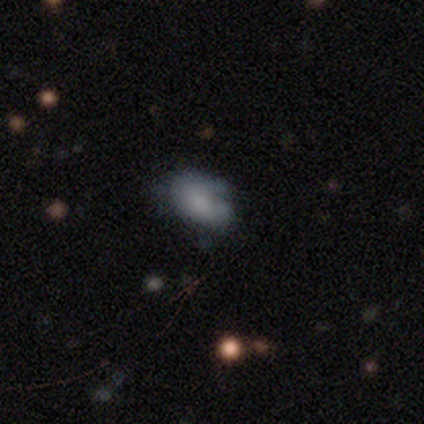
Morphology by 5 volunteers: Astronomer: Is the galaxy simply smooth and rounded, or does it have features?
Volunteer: smooth — 60% (runner-up: featured or disk, 40%).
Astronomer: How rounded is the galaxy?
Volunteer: in between — 67%.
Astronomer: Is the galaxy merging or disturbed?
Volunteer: minor disturbance — 60% (runner-up: none, 40%).